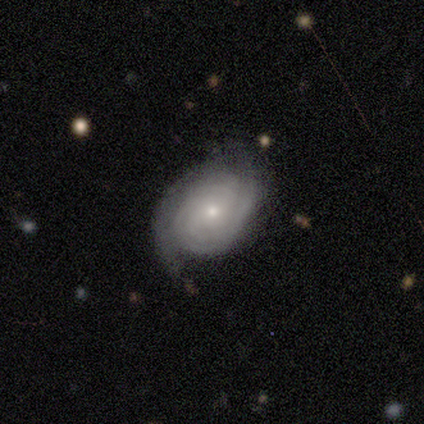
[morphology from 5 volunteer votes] A featured or disk galaxy (100%) with no bar (60%), 2 (60%) tight (80%) spiral arms (100%) and a small central bulge (100%).

Vote fractions:
- Smooth or featured? featured or disk: 100% / smooth: 0% / star or artifact: 0%
- Edge-on disk? no: 100% / yes: 0%
- Bar? no: 60% / weak: 40% / strong: 0%
- Spiral arms? yes: 100% / no: 0%
- Spiral winding? tight: 80% / medium: 20% / loose: 0%
- Spiral arm count? 2: 60% / 3: 20% / can't tell: 20% / 1: 0% / 4: 0% / more than 4: 0%
- Bulge size? small: 100% / dominant: 0% / large: 0% / moderate: 0% / none: 0%
- Merging? none: 80% / minor disturbance: 20% / major disturbance: 0% / merger: 0%